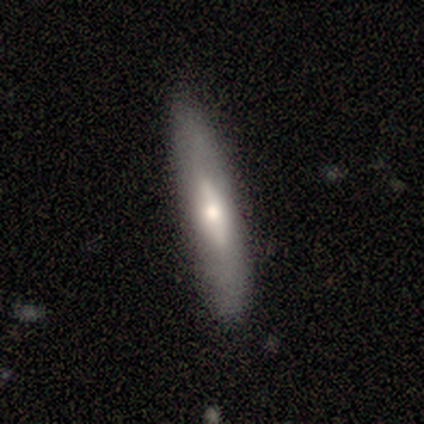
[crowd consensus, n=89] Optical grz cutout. It shows a featured or disk galaxy (49%) viewed edge-on (75%) with a rounded central bulge (67%). Merging: none (85%).